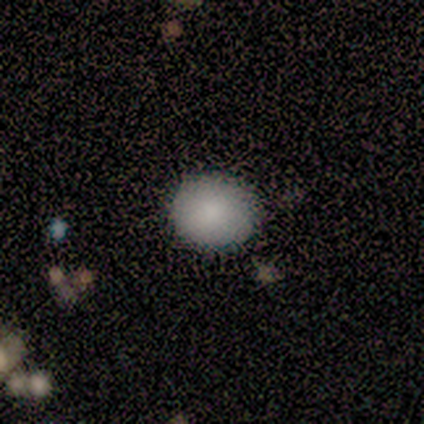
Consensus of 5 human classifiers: Smooth or featured?
  - smooth: 80% *
  - star or artifact: 20%
  - featured or disk: 0%
How rounded?
  - round: 75% *
  - in between: 25%
  - cigar-shaped: 0%
Merging?
  - none: 100% *
  - minor disturbance: 0%
  - major disturbance: 0%
  - merger: 0%